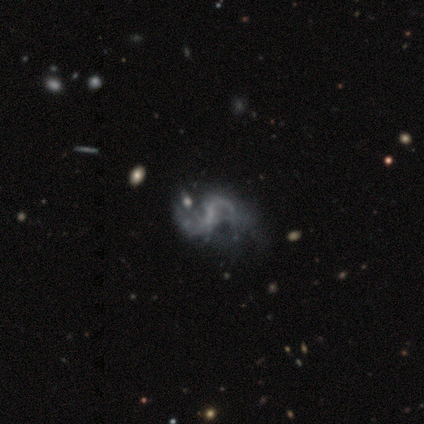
Volunteers were most divided on "merging": none: 40%, minor disturbance: 14%, merger: 11%, major disturbance: 9%. More confident: edge-on disk — no (100%); spiral arms — yes (97%); spiral arm count — 2 (91%); smooth or featured — featured or disk (82%); bulge size — none (76%); spiral winding — loose (62%); bar — weak (58%).